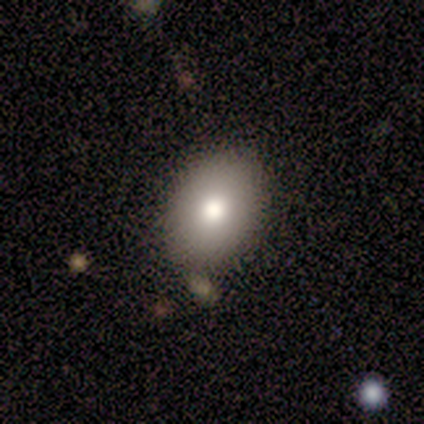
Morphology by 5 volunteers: Smooth or featured? smooth (100%)
How rounded? in between (80%)
Merging? none (100%)